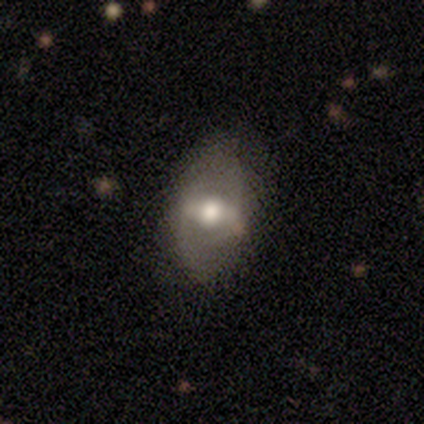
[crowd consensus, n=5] featured or disk 60%, smooth 40%, star or artifact 0%. Down the decision tree: edge-on disk — no (100%); bar — weak (67%); spiral arms — yes (67%); spiral arm count — 2 (50%, tied with can't tell); spiral winding — loose (100%); bulge size — large (67%); merging — none (60%).